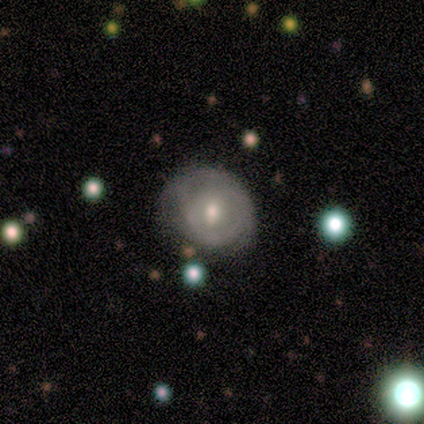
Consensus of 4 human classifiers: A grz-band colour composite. It shows a featured or disk galaxy (75%) with a weak bar (100%), 1 (33%, tied with 2 and can't tell) tight (100%) spiral arms (100%) and a moderate central bulge (100%). Merging: none (100%).